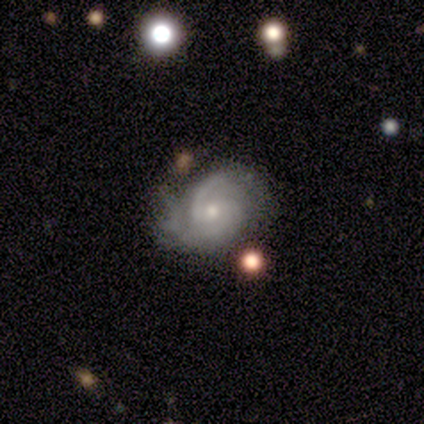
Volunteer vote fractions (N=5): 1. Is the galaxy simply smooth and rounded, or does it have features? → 80% featured or disk, 20% smooth, 0% star or artifact.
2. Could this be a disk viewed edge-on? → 100% no, 0% yes.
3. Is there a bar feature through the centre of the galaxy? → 75% no, 25% weak, 0% strong.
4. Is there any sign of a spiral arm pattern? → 100% yes, 0% no.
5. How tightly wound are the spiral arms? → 50% medium, 25% tight, 25% loose.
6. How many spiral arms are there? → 50% 2, 25% 3, 25% can't tell, 0% 1, 0% 4, 0% more than 4.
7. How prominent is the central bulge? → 100% small, 0% dominant, 0% large, 0% moderate, 0% none.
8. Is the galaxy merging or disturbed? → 60% none, 20% minor disturbance, 20% major disturbance, 0% merger.